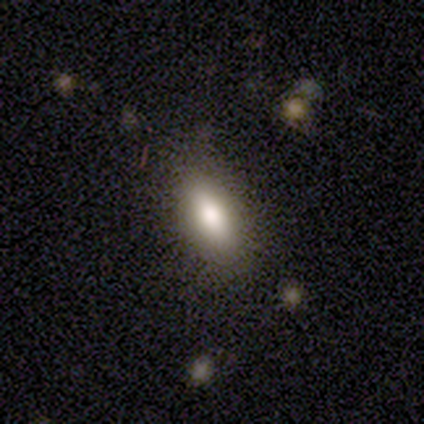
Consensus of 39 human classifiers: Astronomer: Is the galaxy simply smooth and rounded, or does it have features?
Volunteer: smooth — 77%.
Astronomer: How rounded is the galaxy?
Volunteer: in between — 83%.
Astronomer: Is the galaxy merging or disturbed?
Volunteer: none — 81%.